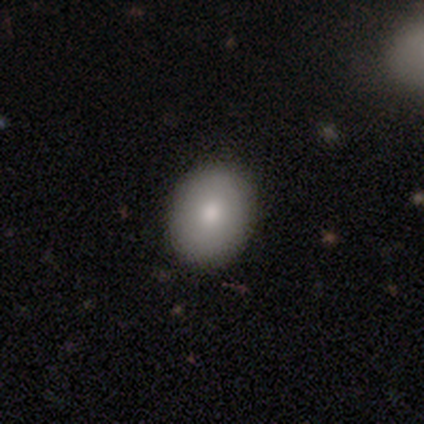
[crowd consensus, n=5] Overall: smooth (80%). How rounded: in between (75%). Merging: none (80%).